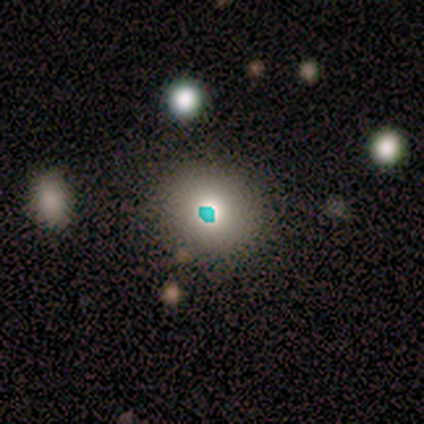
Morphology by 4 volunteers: Smooth or featured?
  - smooth: 50% *
  - featured or disk: 25%
  - star or artifact: 25%
How rounded?
  - round: 100% *
  - in between: 0%
  - cigar-shaped: 0%
Merging?
  - none: 67% *
  - major disturbance: 33%
  - minor disturbance: 0%
  - merger: 0%